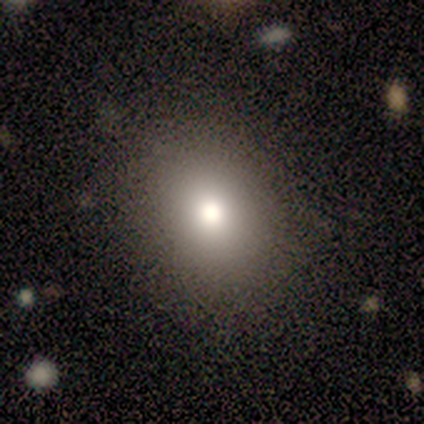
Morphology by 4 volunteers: A smooth galaxy with no disk features (75%) that is round (67%). Merging: none (100%).